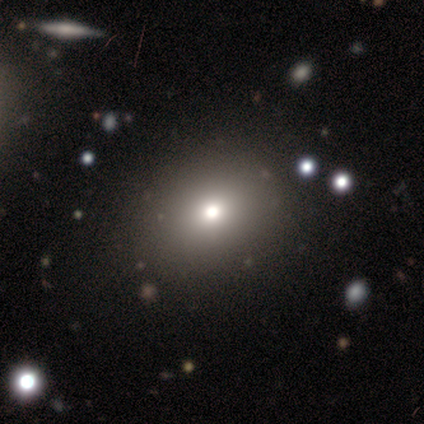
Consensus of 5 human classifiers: This appears to be a smooth galaxy with no disk features (60%) that is round (67%). Merging: none (75%).